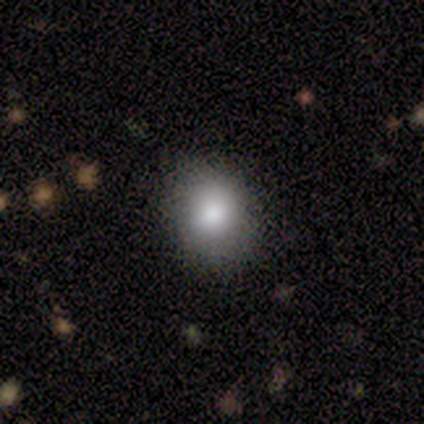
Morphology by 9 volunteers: smooth_or_featured: smooth (p=1.00)
how_rounded: round (p=0.78) [alt: in between p=0.22]
merging: none (p=0.89) [alt: minor disturbance p=0.11]